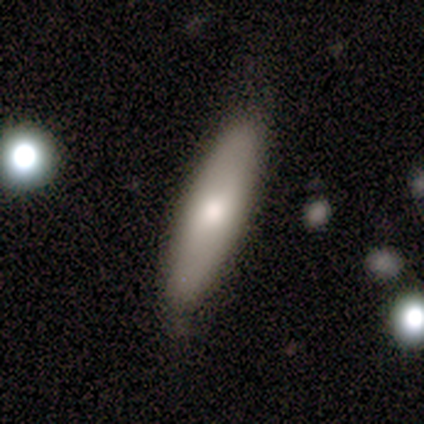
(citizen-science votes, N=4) Morphology: type=smooth (100%); roundness=in between (50%, tied with cigar-shaped); merging=none (100%).